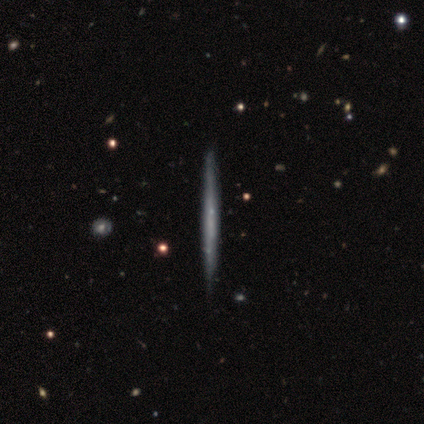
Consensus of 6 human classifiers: This is clearly a featured or disk galaxy (100%). It is clearly viewed edge-on (100%). Edge-on bulge: clearly none (83%). Merging: likely none (67%).